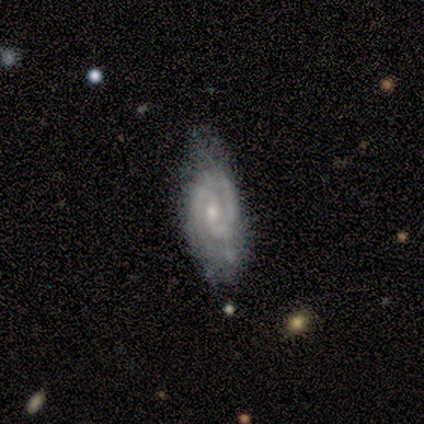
Smooth or featured? featured or disk (75%)
Edge-on disk? no (100%)
Bar? weak (67%)
Spiral arms? yes (100%)
Spiral winding? tight (67%)
Spiral arm count? 2 (100%)
Bulge size? small (67%)
Merging? none (75%)